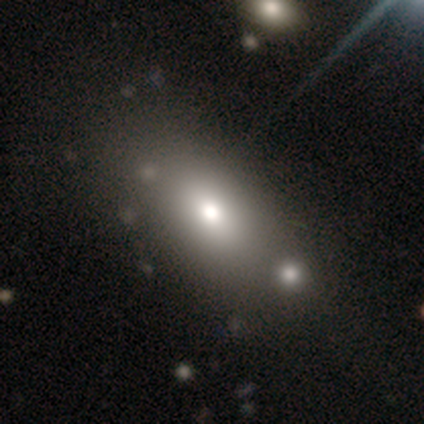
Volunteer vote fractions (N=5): smooth-or-featured: smooth: 80% | star or artifact: 20% | featured or disk: 0%
  how-rounded: round: 50% (tied) | in between: 50% (tied) | cigar-shaped: 0%
  merging: merger: 100% | none: 0% | minor disturbance: 0% | major disturbance: 0%